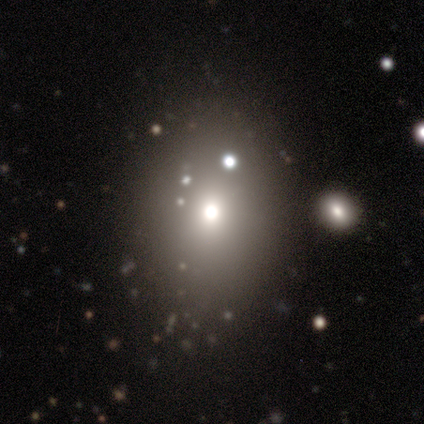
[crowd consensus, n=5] A smooth galaxy with no disk features (80%) that is in between round and cigar-shaped (75%). Merging: none (80%).